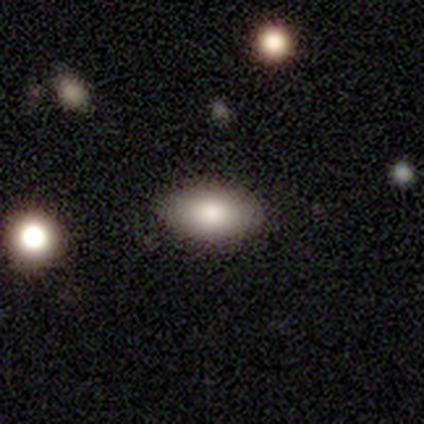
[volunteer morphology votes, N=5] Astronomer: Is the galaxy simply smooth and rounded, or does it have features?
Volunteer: smooth — 100%.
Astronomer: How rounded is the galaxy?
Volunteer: in between — 100%.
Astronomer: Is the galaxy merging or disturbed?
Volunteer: none — 100%.